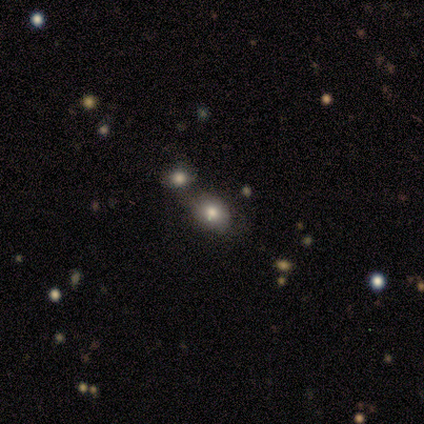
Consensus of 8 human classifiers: Smooth or featured? smooth (75%)
How rounded? in between (83%)
Merging? none (50%, tied with merger)